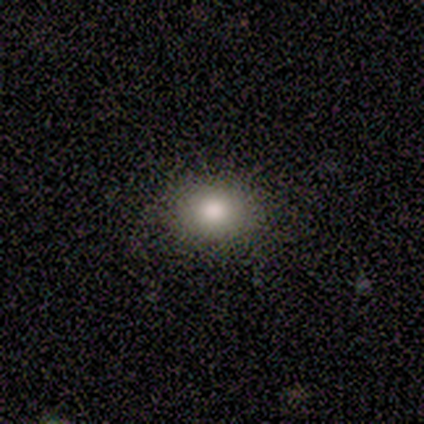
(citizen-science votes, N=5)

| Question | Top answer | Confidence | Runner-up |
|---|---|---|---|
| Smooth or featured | smooth | 80% | featured or disk (20%) |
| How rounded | round | 50% | tied: in between (50%) |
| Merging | none | 80% | minor disturbance (20%) |